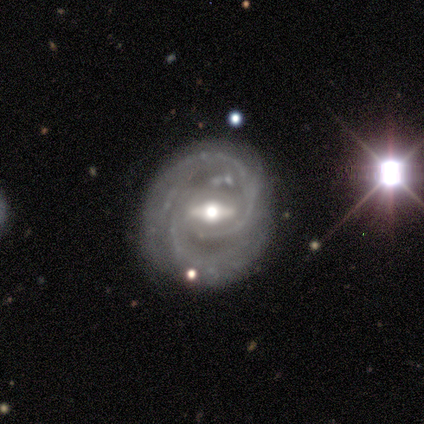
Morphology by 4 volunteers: type=featured or disk (100%); edge-on=no (100%); bar=strong (50%, tied with weak); spiral arms=yes (100%); winding=tight (50%, tied with medium); arm count=2 (75%); bulge=moderate (75%); merging=none (100%).